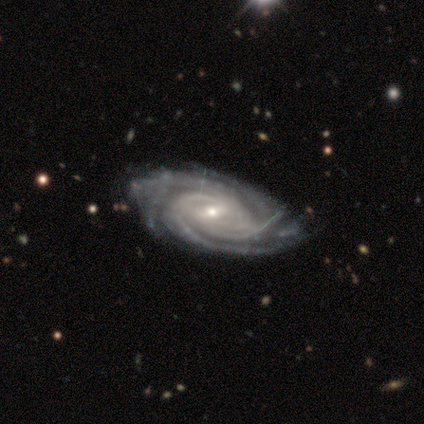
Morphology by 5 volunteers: A featured or disk galaxy (80%) with a weak bar (50%, tied with no), 3 (50%, tied with more than 4) tight (50%, tied with medium) spiral arms (100%) and a small central bulge (75%). Merging: none (100%).